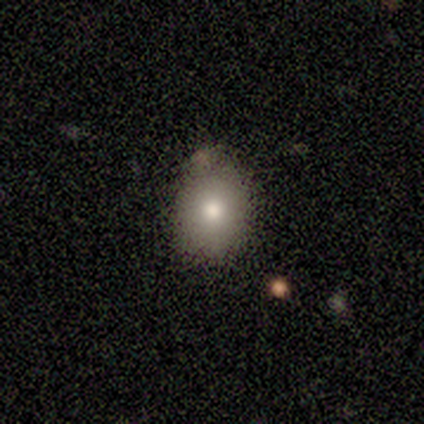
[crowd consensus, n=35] Smooth or featured?
  - smooth: 80% *
  - star or artifact: 11%
  - featured or disk: 9%
How rounded?
  - in between: 75% *
  - round: 25%
  - cigar-shaped: 0%
Merging?
  - none: 65% *
  - minor disturbance: 29%
  - merger: 6%
  - major disturbance: 0%